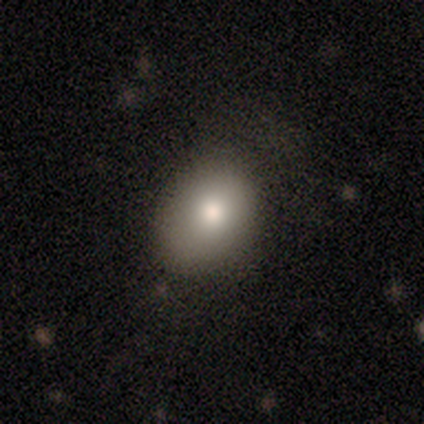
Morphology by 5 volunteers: smooth_or_featured: smooth (p=0.80) [alt: featured or disk p=0.20]
how_rounded: round (p=0.50) [tied with: in between p=0.50]
merging: minor disturbance (p=0.60) [alt: none p=0.40]